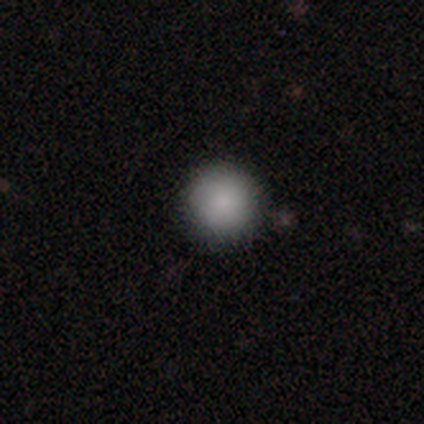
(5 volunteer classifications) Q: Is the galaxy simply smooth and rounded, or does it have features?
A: smooth — 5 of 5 (100%).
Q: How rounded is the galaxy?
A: round — 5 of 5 (100%).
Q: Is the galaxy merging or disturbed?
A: none — 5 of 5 (100%).